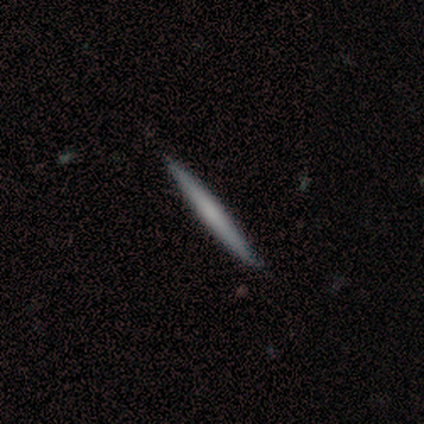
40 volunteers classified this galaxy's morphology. smooth 65%, featured or disk 35%, star or artifact 0%. Down the decision tree: how rounded — cigar-shaped (100%); merging — none (90%).